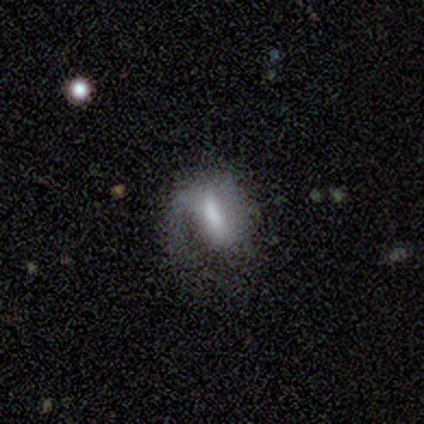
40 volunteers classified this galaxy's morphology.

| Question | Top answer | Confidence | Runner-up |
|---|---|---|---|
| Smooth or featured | featured or disk | 72% | smooth (28%) |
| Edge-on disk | no | 100% | — |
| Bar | weak | 38% | tied: no (38%) |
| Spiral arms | yes | 76% | no (24%) |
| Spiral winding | loose | 50% | medium (27%) |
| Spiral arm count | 1 | 86% | can't tell (9%) |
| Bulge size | moderate | 55% | small (24%) |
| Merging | none | 45% | major disturbance (30%) |